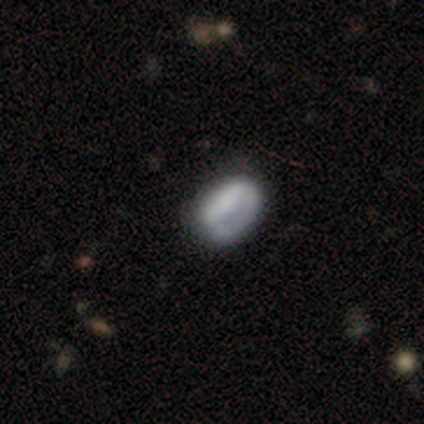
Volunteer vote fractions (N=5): This is clearly a smooth galaxy (80%). How rounded: likely in between (75%). Merging: likely none (60%).